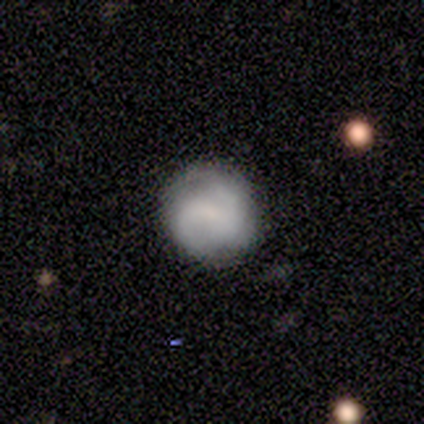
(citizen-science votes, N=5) Smooth or featured? 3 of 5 (60%) said smooth. How rounded? 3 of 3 (100%) said round. Merging? 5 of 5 (100%) said none.